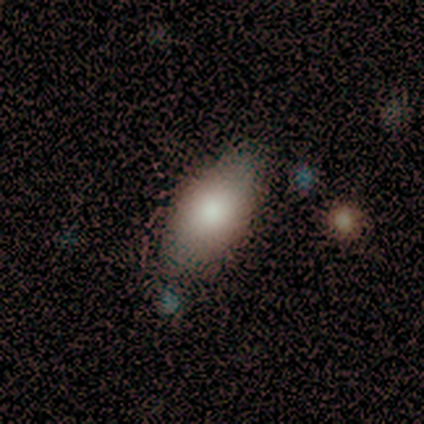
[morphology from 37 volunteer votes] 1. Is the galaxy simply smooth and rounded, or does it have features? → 68% smooth, 24% featured or disk, 8% star or artifact.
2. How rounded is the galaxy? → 92% in between, 8% cigar-shaped, 0% round.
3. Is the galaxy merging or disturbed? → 65% none, 35% minor disturbance, 0% major disturbance, 0% merger.